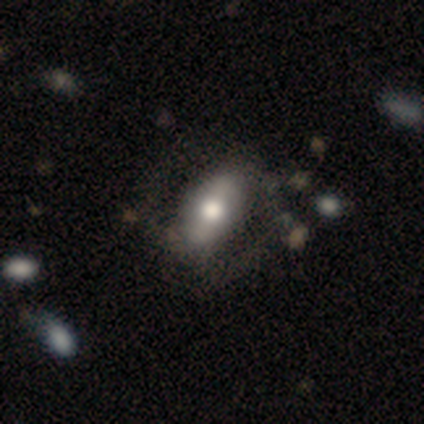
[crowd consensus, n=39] Overall: smooth (51%; featured or disk 41%). How rounded: in between (90%). Merging: none (36%; minor disturbance 22%).